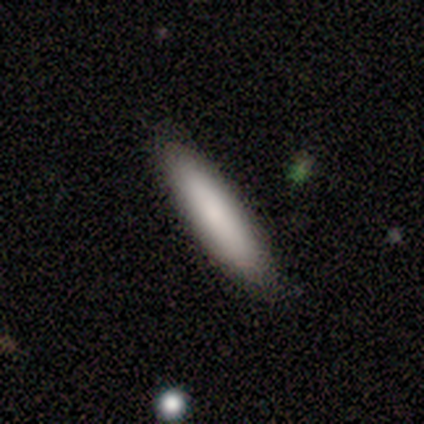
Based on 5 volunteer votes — This appears to be a smooth galaxy with no disk features (80%) that is cigar-shaped (100%). Merging: none (100%).